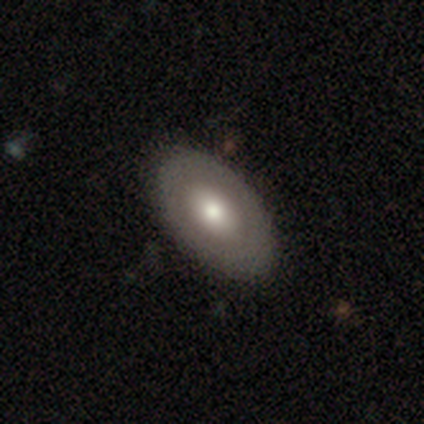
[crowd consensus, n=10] Smooth or featured? 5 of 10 (50%) said featured or disk. Edge-on disk? 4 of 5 (80%) said no. Bar? 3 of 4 (75%) said no. Spiral arms? 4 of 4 (100%) said no. Bulge size? 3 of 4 (75%) said moderate. Merging? 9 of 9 (100%) said none.